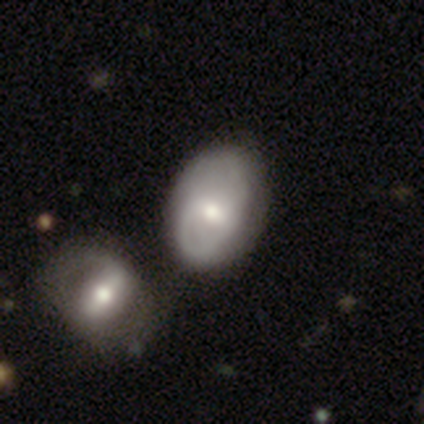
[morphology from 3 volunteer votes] A smooth galaxy with no disk features (100%) that is in between round and cigar-shaped (100%). Merging: minor disturbance (67%).